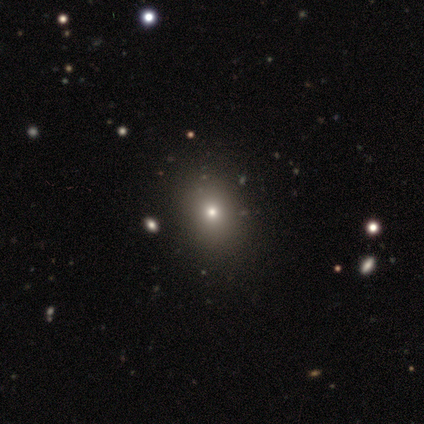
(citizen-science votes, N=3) Consensus on every question: smooth or featured — smooth (100%); how rounded — round (100%); merging — none (100%).